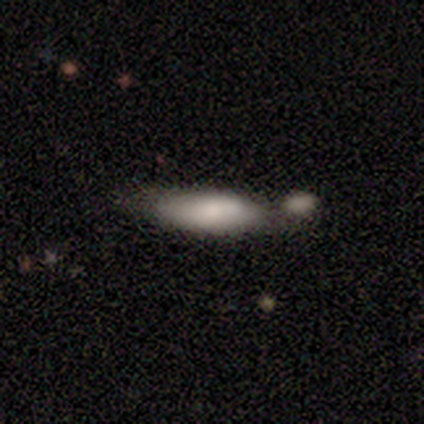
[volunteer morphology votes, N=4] Q: Smooth or featured?
A: smooth (75%); runner-up: featured or disk (25%)
Q: How rounded?
A: in between (67%); runner-up: cigar-shaped (33%)
Q: Merging?
A: none (50%); tied with: minor disturbance (50%)